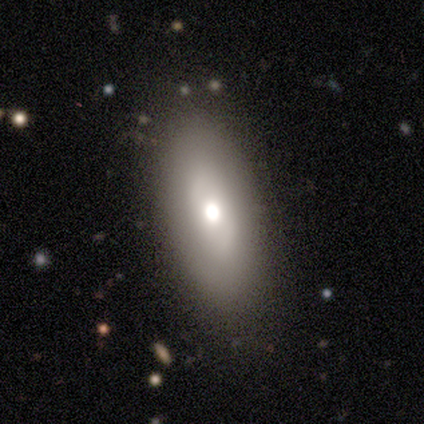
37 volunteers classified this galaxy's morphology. Overall: featured or disk (49%; smooth 43%). Edge-on disk: no (89%). Bar: no (75%). Spiral arms: no (88%). Bulge size: moderate (69%). Merging: none (59%).